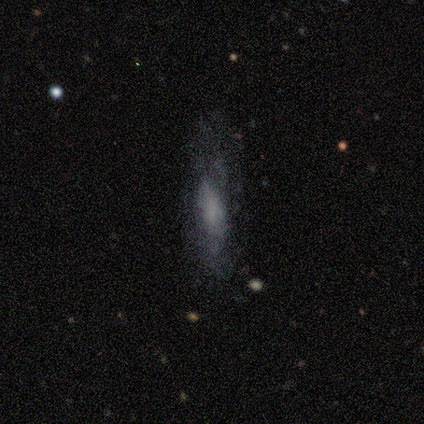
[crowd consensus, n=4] Overall: smooth (75%). How rounded: in between (67%; cigar-shaped 33%). Merging: minor disturbance (100%).